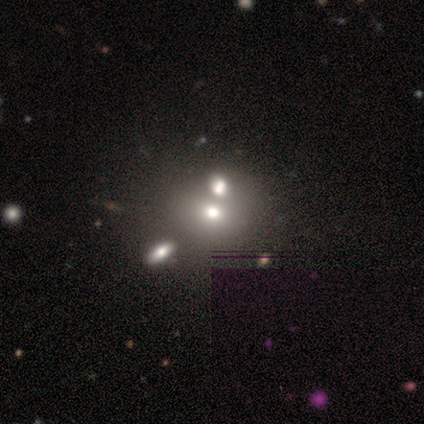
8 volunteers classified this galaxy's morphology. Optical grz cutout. It shows a smooth galaxy with no disk features (75%) that is round (67%). Merging: merger (38%).